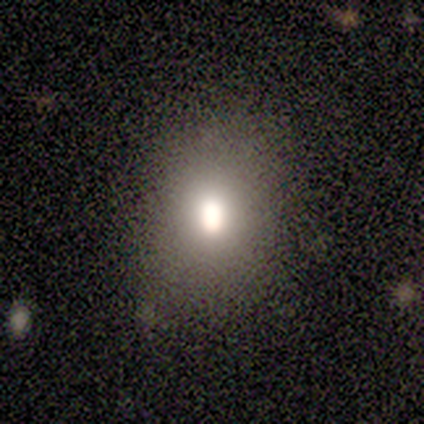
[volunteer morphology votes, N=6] A smooth galaxy with no disk features (83%) that is round (60%).

Vote fractions:
- Smooth or featured? smooth: 83% / star or artifact: 17% / featured or disk: 0%
- How rounded? round: 60% / in between: 40% / cigar-shaped: 0%
- Merging? none: 80% / minor disturbance: 20% / major disturbance: 0% / merger: 0%